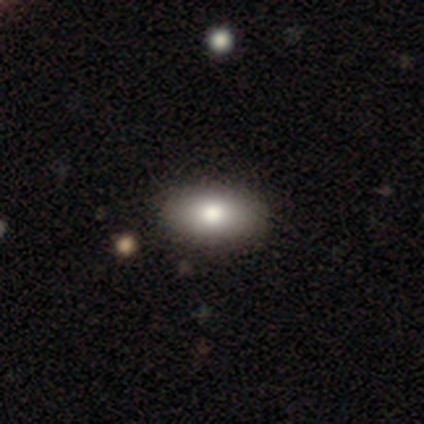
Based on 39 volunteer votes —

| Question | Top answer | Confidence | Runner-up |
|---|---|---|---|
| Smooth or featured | smooth | 82% | featured or disk (15%) |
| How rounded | in between | 88% | round (6%) |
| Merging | none | 66% | major disturbance (5%) |